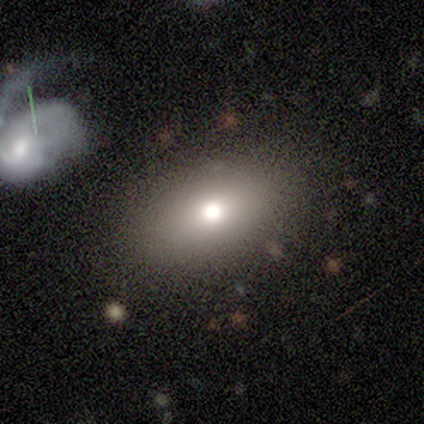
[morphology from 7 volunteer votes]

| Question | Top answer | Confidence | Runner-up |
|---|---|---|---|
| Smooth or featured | smooth | 86% | star or artifact (14%) |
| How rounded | in between | 100% | — |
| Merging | none | 83% | merger (17%) |